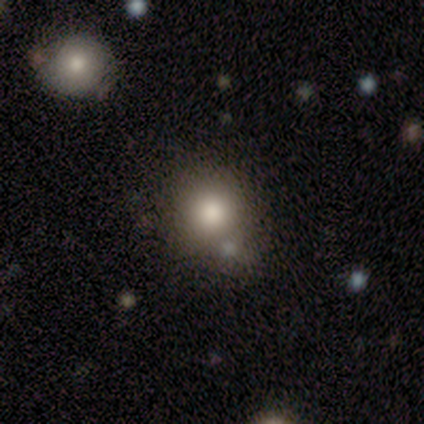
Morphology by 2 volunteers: Smooth or featured?
  - smooth: 50% * (tied)
  - star or artifact: 50% * (tied)
  - featured or disk: 0%
How rounded?
  - round: 100% *
  - in between: 0%
  - cigar-shaped: 0%
Merging?
  - minor disturbance: 100% *
  - none: 0%
  - major disturbance: 0%
  - merger: 0%